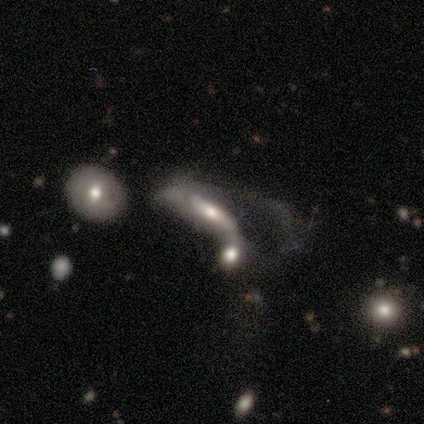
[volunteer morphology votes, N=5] type=featured or disk (60%); edge-on=no (67%); bar=weak (50%, tied with no); spiral arms=yes (50%, tied with no); winding=tight (100%); arm count=1 (100%); bulge=moderate (100%); merging=none (40%, tied with major disturbance).